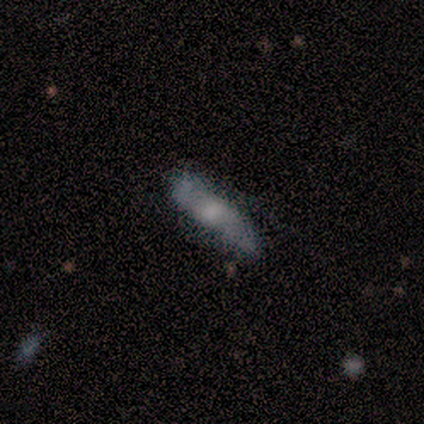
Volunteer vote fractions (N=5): Volunteers were most divided on "merging": none: 60%, minor disturbance: 40%, major disturbance: 0%, merger: 0%. More confident: smooth or featured — smooth (80%); how rounded — cigar-shaped (75%).